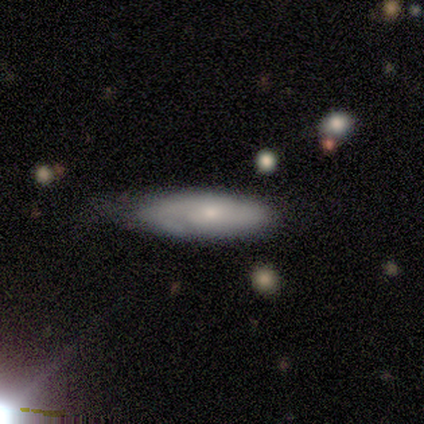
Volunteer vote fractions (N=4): Overall: smooth (50%, tied with featured or disk). How rounded: cigar-shaped (100%). Merging: none (50%; minor disturbance 25%).